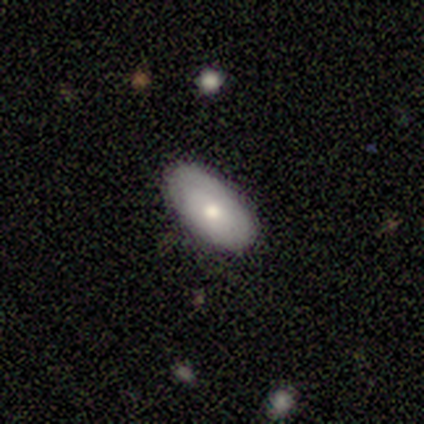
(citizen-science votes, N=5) Smooth or featured? smooth (80%)
How rounded? in between (75%)
Merging? none (100%)